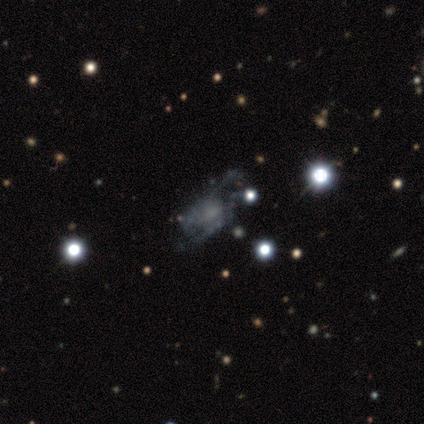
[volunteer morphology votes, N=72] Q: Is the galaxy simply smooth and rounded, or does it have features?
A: featured or disk — 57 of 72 (79%).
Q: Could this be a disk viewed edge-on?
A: no — 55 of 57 (96%).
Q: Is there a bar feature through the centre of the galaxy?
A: no — 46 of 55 (84%).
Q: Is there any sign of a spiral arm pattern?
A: no — 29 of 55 (53%).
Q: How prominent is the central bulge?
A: none — 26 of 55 (47%).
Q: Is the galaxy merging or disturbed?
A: none — 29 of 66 (44%).